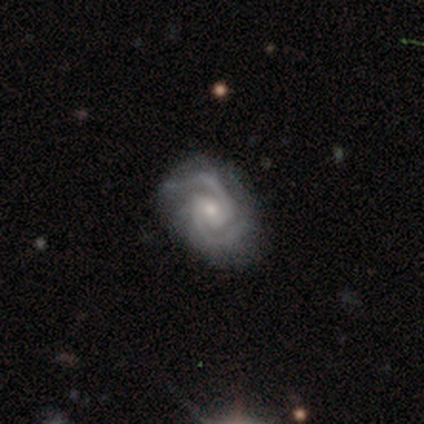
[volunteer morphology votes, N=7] A featured or disk galaxy (86%) with a weak bar (40%, tied with no), 2 (80%) tight (60%) spiral arms (100%) and a small central bulge (80%).

Vote fractions:
- Smooth or featured? featured or disk: 86% / star or artifact: 14% / smooth: 0%
- Edge-on disk? no: 83% / yes: 17%
- Bar? weak: 40% (tied) / no: 40% (tied) / strong: 20%
- Spiral arms? yes: 100% / no: 0%
- Spiral winding? tight: 60% / medium: 40% / loose: 0%
- Spiral arm count? 2: 80% / can't tell: 20% / 1: 0% / 3: 0% / 4: 0% / more than 4: 0%
- Bulge size? small: 80% / moderate: 20% / dominant: 0% / large: 0% / none: 0%
- Merging? none: 50% / major disturbance: 33% / minor disturbance: 17% / merger: 0%